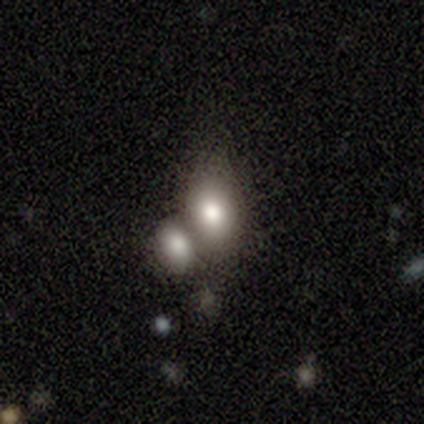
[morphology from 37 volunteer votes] A smooth galaxy with no disk features (81%) that is in between round and cigar-shaped (60%). Merging: merger (65%).